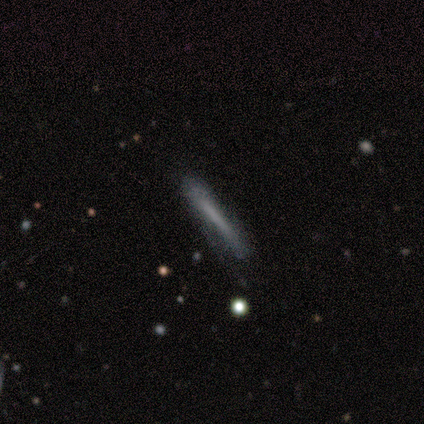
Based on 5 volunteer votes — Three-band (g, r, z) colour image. It shows a smooth galaxy with no disk features (80%) that is cigar-shaped (75%). Merging: none (60%).